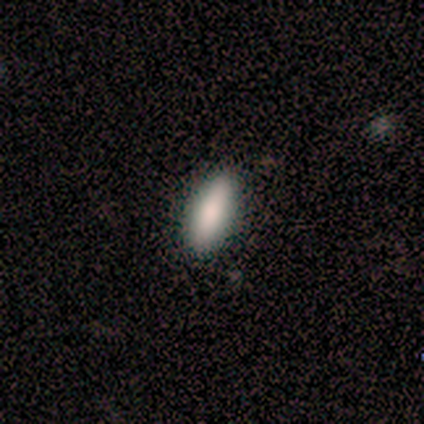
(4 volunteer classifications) smooth-or-featured: smooth: 75% | featured or disk: 25% | star or artifact: 0%
  how-rounded: in between: 67% | cigar-shaped: 33% | round: 0%
  merging: none: 100% | minor disturbance: 0% | major disturbance: 0% | merger: 0%